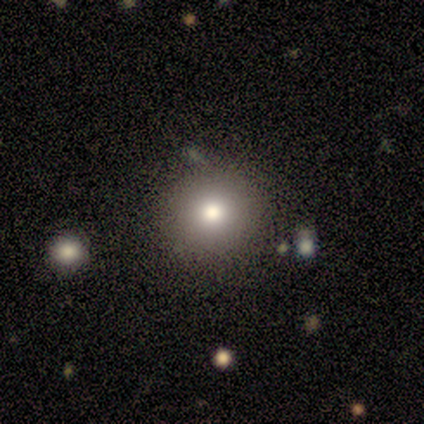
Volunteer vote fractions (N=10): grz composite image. It shows a smooth galaxy with no disk features (50%, tied with star or artifact) that is round (100%). Merging: none (60%).